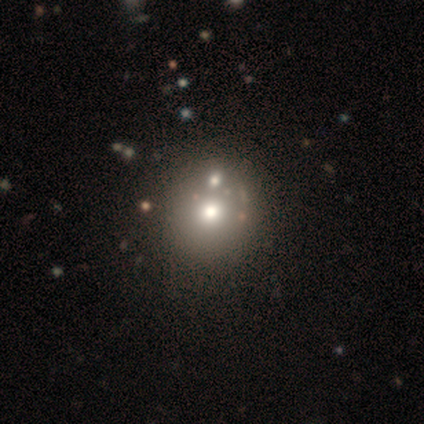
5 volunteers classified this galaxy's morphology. A featured or disk galaxy (40%, tied with star or artifact) with no bar (100%), no spiral arms (100%) and a moderate central bulge (50%, tied with small).

Vote fractions:
- Smooth or featured? featured or disk: 40% (tied) / star or artifact: 40% (tied) / smooth: 20%
- Edge-on disk? no: 100% / yes: 0%
- Bar? no: 100% / strong: 0% / weak: 0%
- Spiral arms? no: 100% / yes: 0%
- Bulge size? moderate: 50% (tied) / small: 50% (tied) / dominant: 0% / large: 0% / none: 0%
- Merging? none: 100% / minor disturbance: 0% / major disturbance: 0% / merger: 0%